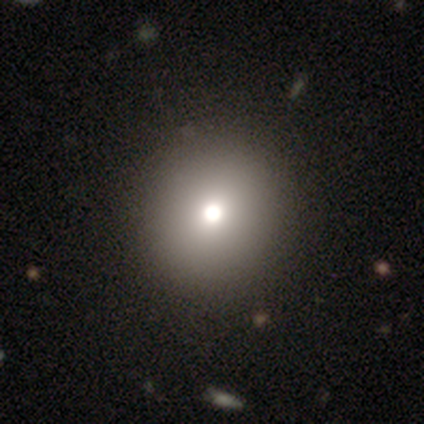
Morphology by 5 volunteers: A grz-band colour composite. It shows a smooth galaxy with no disk features (60%) that is round (100%). Merging: none (100%).